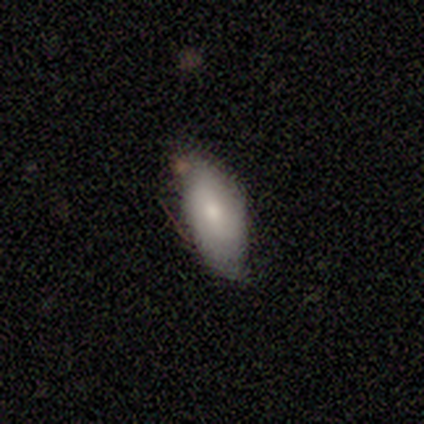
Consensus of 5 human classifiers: Q: Smooth or featured?
A: featured or disk (60%); runner-up: smooth (40%)
Q: Edge-on disk?
A: no (100%)
Q: Bar?
A: weak (67%); runner-up: no (33%)
Q: Spiral arms?
A: yes (67%); runner-up: no (33%)
Q: Spiral winding?
A: tight (50%); tied with: medium (50%)
Q: Spiral arm count?
A: 2 (100%)
Q: Bulge size?
A: moderate (67%); runner-up: large (33%)
Q: Merging?
A: none (60%); runner-up: minor disturbance (40%)